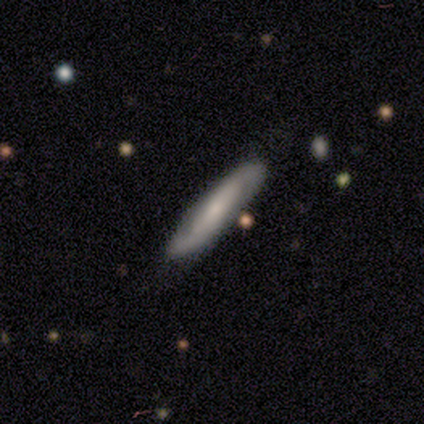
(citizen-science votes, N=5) smooth_or_featured: smooth (p=0.80) [alt: star or artifact p=0.20]
how_rounded: cigar-shaped (p=1.00)
merging: none (p=1.00)